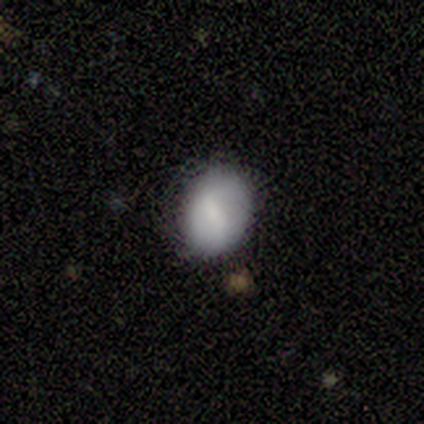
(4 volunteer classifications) Smooth or featured? smooth (50%, tied with featured or disk)
How rounded? in between (100%)
Merging? none (75%)